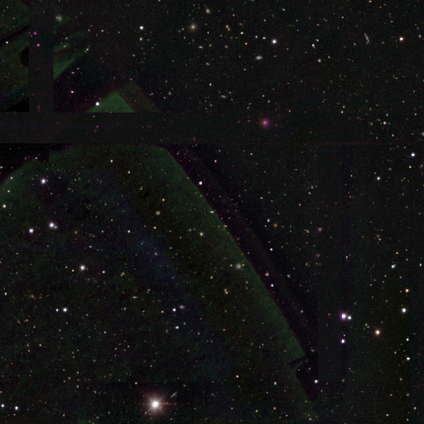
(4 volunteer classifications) star or artifact 75%, featured or disk 25%, smooth 0%.